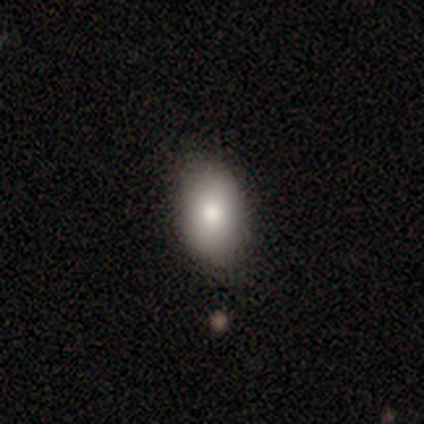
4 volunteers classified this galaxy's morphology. smooth-or-featured: smooth: 75% | star or artifact: 25% | featured or disk: 0%
  how-rounded: in between: 100% | round: 0% | cigar-shaped: 0%
  merging: none: 100% | minor disturbance: 0% | major disturbance: 0% | merger: 0%